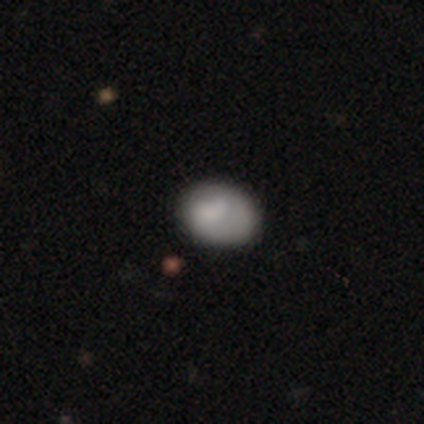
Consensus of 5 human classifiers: This appears to be a smooth galaxy with no disk features (80%) that is in between round and cigar-shaped (100%). Merging: none (60%).